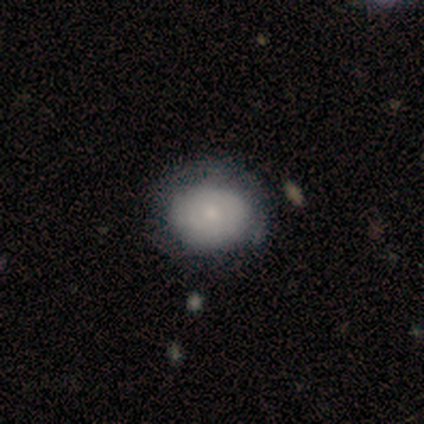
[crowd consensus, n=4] smooth-or-featured: smooth: 100% | featured or disk: 0% | star or artifact: 0%
  how-rounded: round: 50% (tied) | in between: 50% (tied) | cigar-shaped: 0%
  merging: none: 50% | minor disturbance: 25% | merger: 25% | major disturbance: 0%